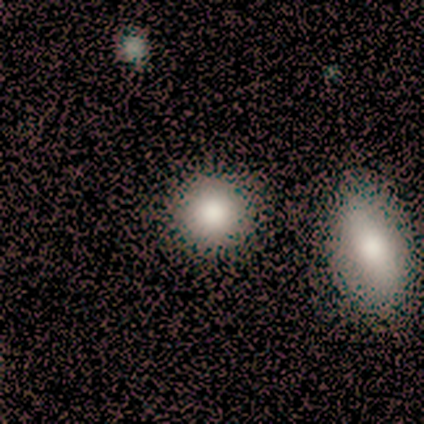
smooth 82%, star or artifact 11%, featured or disk 8%. Down the decision tree: how rounded — round (87%); merging — none (68%).